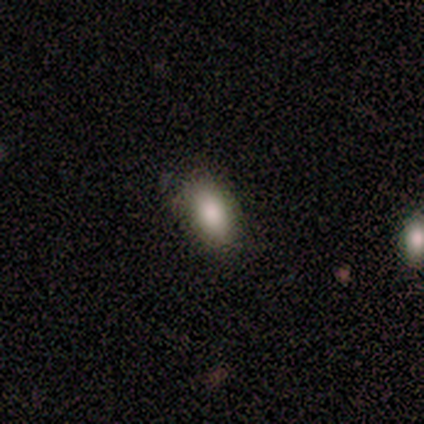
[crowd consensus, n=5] Volunteers were most divided on "merging": none: 80%, minor disturbance: 20%, major disturbance: 0%, merger: 0%. More confident: smooth or featured — smooth (100%); how rounded — in between (100%).